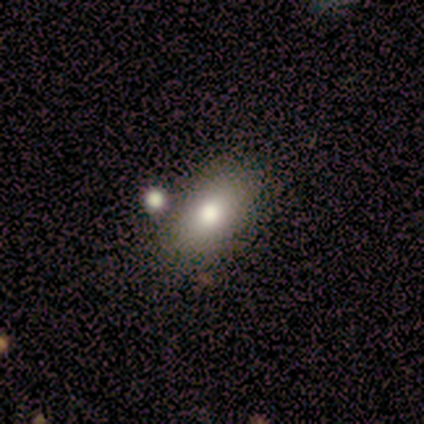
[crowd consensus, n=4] Smooth or featured: featured or disk — 50% (smooth — 25%)
Edge-on disk: no — 100%
Bar: no — 100%
Spiral arms: no — 100%
Bulge size: large — 100%
Merging: merger — 67% (minor disturbance — 33%)